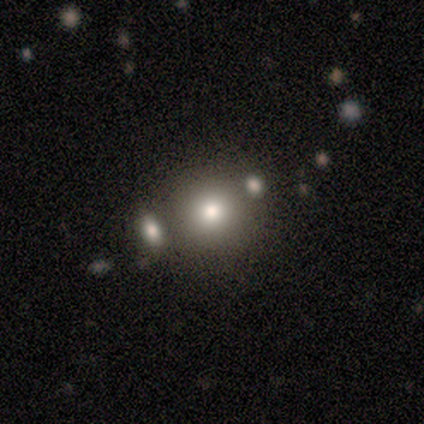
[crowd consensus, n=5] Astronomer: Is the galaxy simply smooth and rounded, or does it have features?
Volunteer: smooth — 80%.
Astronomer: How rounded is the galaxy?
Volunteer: round — 100%.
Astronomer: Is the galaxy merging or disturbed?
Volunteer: none — 80%.